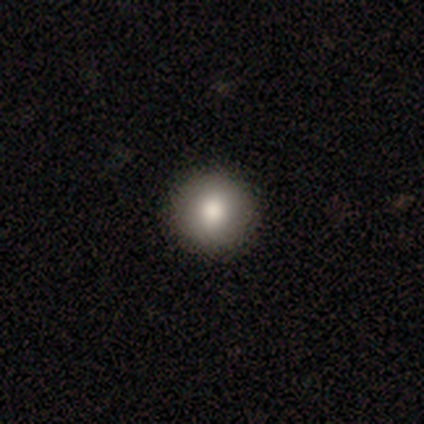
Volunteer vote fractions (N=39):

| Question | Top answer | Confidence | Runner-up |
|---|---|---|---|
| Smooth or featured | smooth | 87% | featured or disk (8%) |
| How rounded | round | 94% | in between (3%) |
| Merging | none | 97% | major disturbance (3%) |